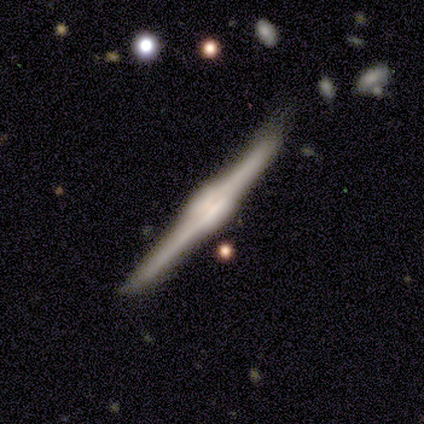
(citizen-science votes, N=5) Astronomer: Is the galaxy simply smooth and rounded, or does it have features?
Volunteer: featured or disk — 100%.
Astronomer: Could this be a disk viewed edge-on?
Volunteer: yes — 100%.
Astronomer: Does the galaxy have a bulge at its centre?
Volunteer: rounded — 80%.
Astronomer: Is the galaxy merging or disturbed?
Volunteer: none — 60% (runner-up: minor disturbance, 40%).